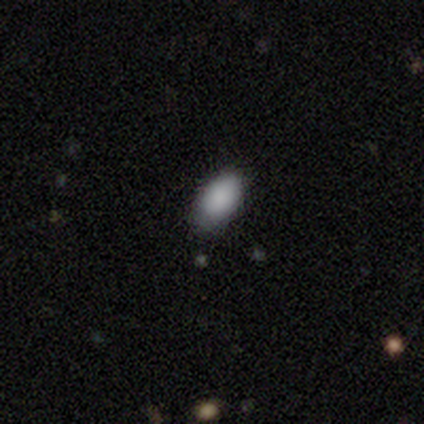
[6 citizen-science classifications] A smooth galaxy with no disk features (100%) that is in between round and cigar-shaped (100%).

Vote fractions:
- Smooth or featured? smooth: 100% / featured or disk: 0% / star or artifact: 0%
- How rounded? in between: 100% / round: 0% / cigar-shaped: 0%
- Merging? none: 67% / minor disturbance: 33% / major disturbance: 0% / merger: 0%